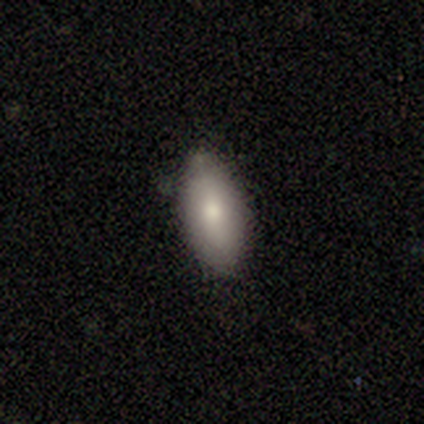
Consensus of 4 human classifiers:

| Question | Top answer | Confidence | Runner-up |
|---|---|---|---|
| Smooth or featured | smooth | 100% | — |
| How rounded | in between | 75% | cigar-shaped (25%) |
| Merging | none | 75% | minor disturbance (25%) |